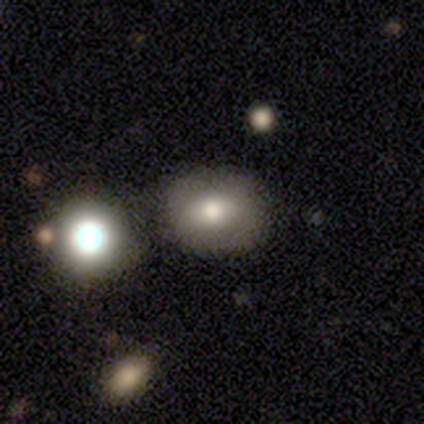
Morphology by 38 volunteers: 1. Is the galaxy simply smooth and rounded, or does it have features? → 79% smooth, 13% star or artifact, 8% featured or disk.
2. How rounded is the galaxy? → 53% in between, 47% round, 0% cigar-shaped.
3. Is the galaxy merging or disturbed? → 73% none, 18% merger, 6% minor disturbance, 3% major disturbance.